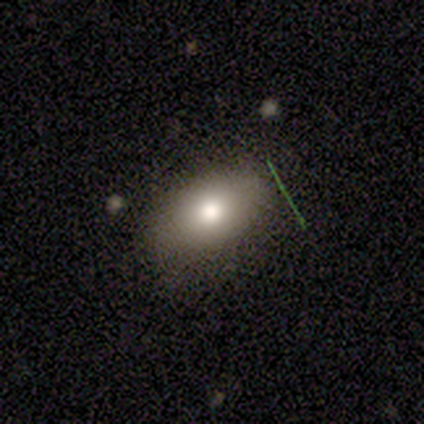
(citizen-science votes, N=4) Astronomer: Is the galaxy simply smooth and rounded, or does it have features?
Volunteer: featured or disk — 100%.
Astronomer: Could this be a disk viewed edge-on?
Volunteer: no — 75%.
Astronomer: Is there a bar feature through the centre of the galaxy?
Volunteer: no — 100%.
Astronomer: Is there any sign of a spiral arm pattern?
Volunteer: no — 100%.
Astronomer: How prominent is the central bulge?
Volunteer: moderate — 100%.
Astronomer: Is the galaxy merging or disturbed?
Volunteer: none — 75%.